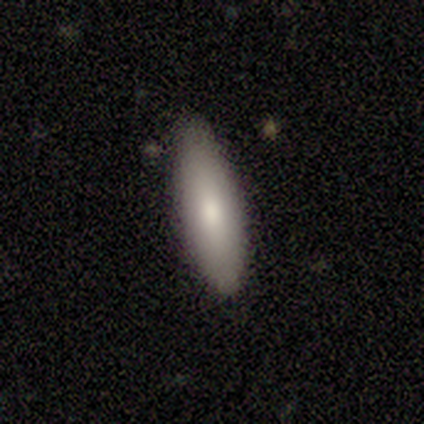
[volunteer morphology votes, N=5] type=smooth (80%); roundness=in between (75%); merging=none (100%).